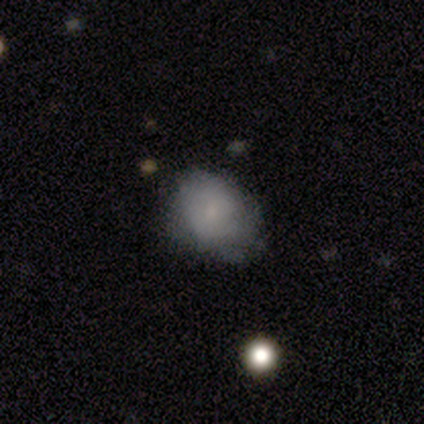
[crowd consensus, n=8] Q: Smooth or featured?
A: smooth (62%); runner-up: featured or disk (38%)
Q: How rounded?
A: in between (80%); runner-up: round (20%)
Q: Merging?
A: none (75%); runner-up: minor disturbance (25%)